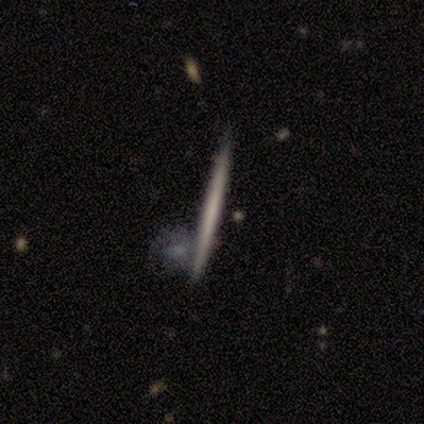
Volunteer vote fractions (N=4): A smooth galaxy with no disk features (75%) that is cigar-shaped (100%). Merging: none (75%).